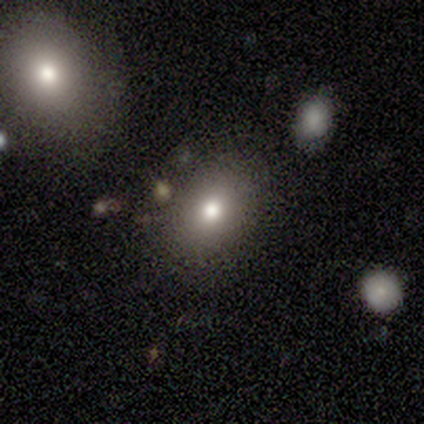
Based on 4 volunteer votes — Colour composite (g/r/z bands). It shows a smooth galaxy with no disk features (50%) that is in between round and cigar-shaped (100%). Merging: none (67%).